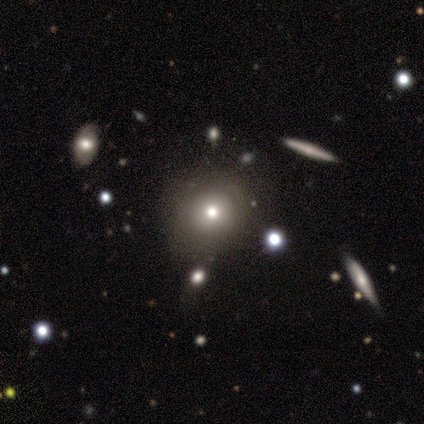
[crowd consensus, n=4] Volunteers were most divided on "how rounded": round: 67%, cigar-shaped: 33%, in between: 0%. More confident: smooth or featured — smooth (75%); merging — none (67%).